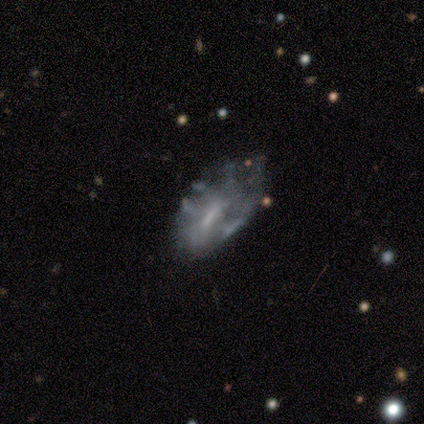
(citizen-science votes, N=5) This is clearly a featured or disk galaxy (80%). It is clearly not viewed edge-on (100%). Bar: possibly weak (50%, tied with no). Spiral arm pattern: likely no (75%). Central bulge: possibly small (50%). Merging: likely none (60%).